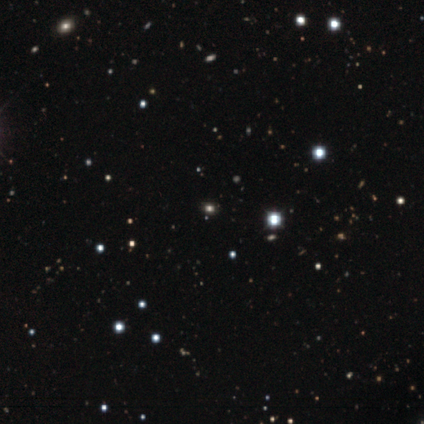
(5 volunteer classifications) This appears to be a star or artifact, not a galaxy (80%).